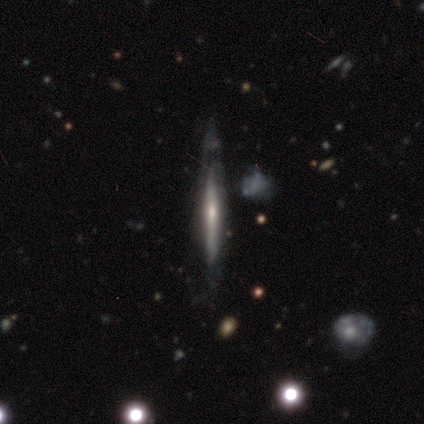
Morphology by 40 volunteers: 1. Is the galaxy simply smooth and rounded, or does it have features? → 80% featured or disk, 15% smooth, 5% star or artifact.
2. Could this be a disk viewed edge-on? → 84% yes, 16% no.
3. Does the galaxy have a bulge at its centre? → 48% rounded, 37% none, 15% boxy.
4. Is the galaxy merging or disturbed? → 42% none, 32% minor disturbance, 21% major disturbance, 5% merger.